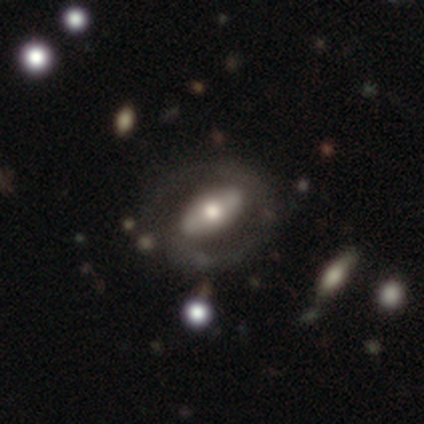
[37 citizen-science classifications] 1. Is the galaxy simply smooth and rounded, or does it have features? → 70% featured or disk, 19% smooth, 11% star or artifact.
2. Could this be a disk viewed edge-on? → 73% no, 27% yes.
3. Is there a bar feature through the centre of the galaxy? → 74% strong, 16% weak, 11% no.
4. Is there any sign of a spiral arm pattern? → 74% yes, 26% no.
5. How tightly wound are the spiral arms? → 50% medium, 36% tight, 14% loose.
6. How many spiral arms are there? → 79% 2, 14% can't tell, 7% 1, 0% 3, 0% 4, 0% more than 4.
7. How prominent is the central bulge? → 53% moderate, 37% large, 11% small, 0% dominant, 0% none.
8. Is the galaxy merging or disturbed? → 58% none, 21% minor disturbance, 18% major disturbance, 3% merger.